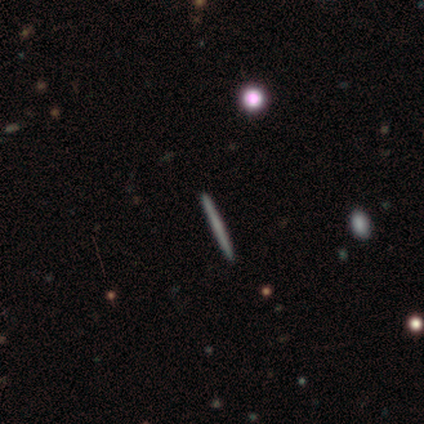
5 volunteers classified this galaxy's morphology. Smooth or featured? featured or disk (60%)
Edge-on disk? yes (100%)
Edge-on bulge? none (100%)
Merging? none (100%)